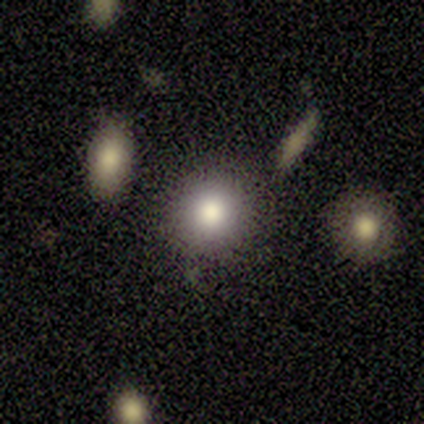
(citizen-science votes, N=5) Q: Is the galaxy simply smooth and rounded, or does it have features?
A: smooth — 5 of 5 (100%).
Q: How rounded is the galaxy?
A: round — 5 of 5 (100%).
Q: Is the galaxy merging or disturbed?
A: none — 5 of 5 (100%).